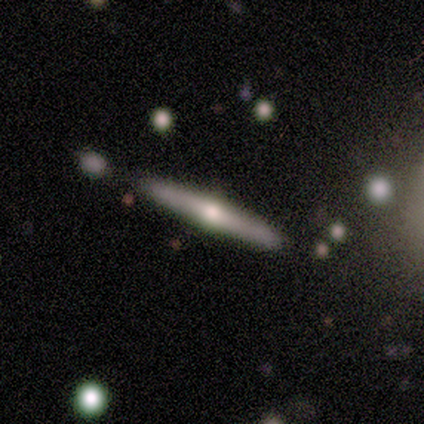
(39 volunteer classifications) Q: Smooth or featured?
A: featured or disk (79%); runner-up: smooth (18%)
Q: Edge-on disk?
A: yes (94%); runner-up: no (6%)
Q: Edge-on bulge?
A: rounded (86%); runner-up: none (14%)
Q: Merging?
A: none (89%); runner-up: minor disturbance (8%)